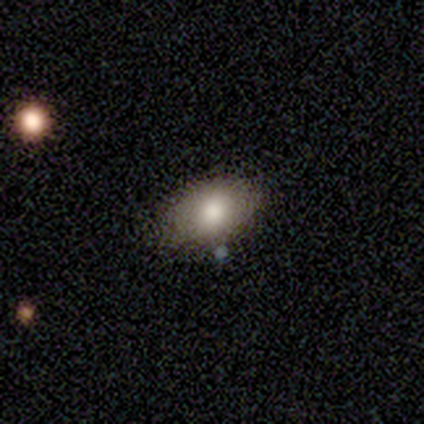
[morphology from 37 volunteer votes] A smooth galaxy with no disk features (78%) that is in between round and cigar-shaped (90%).

Vote fractions:
- Smooth or featured? smooth: 78% / featured or disk: 16% / star or artifact: 5%
- How rounded? in between: 90% / round: 10% / cigar-shaped: 0%
- Merging? none: 77% / minor disturbance: 23% / major disturbance: 0% / merger: 0%